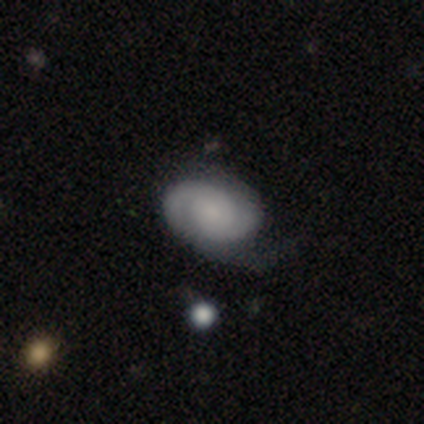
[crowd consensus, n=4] This appears to be a featured or disk galaxy (50%) with a weak bar (50%, tied with no), 2 (100%) medium (100%) spiral arms (100%) and a large central bulge (50%, tied with none). Merging: none (67%).